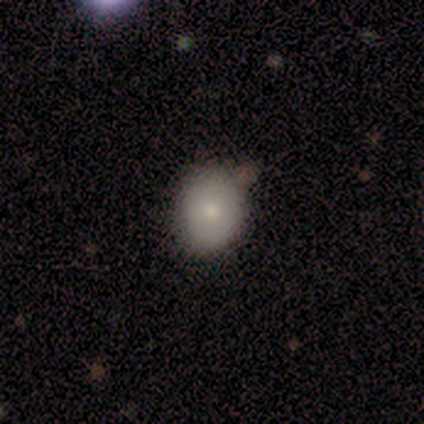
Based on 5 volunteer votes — A smooth galaxy with no disk features (100%) that is round (80%). Merging: none (100%).